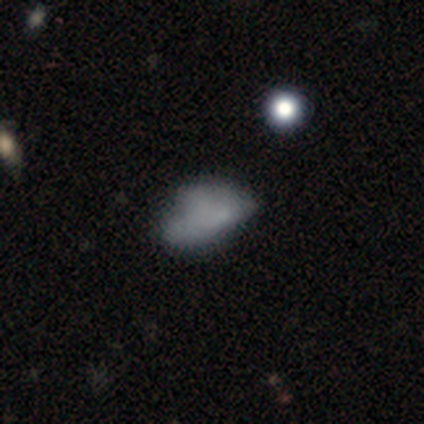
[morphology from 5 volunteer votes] smooth-or-featured: featured or disk: 60% | smooth: 40% | star or artifact: 0%
  disk-edge-on: no: 100% | yes: 0%
    bar: no: 100% | strong: 0% | weak: 0%
    has-spiral-arms: no: 100% | yes: 0%
    bulge-size: none: 100% | dominant: 0% | large: 0% | moderate: 0% | small: 0%
  merging: minor disturbance: 40% | none: 20% | major disturbance: 20% | merger: 20%